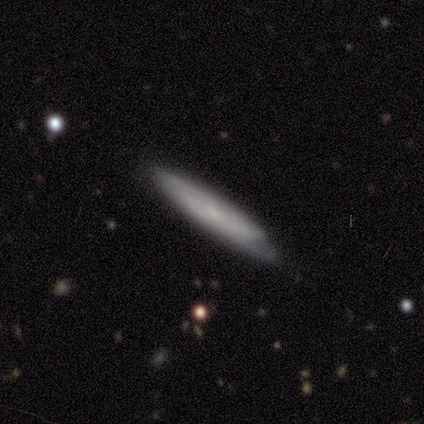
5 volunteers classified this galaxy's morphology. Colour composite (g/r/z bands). It shows a featured or disk galaxy (80%) viewed edge-on (75%) with no central bulge (100%). Merging: none (80%).